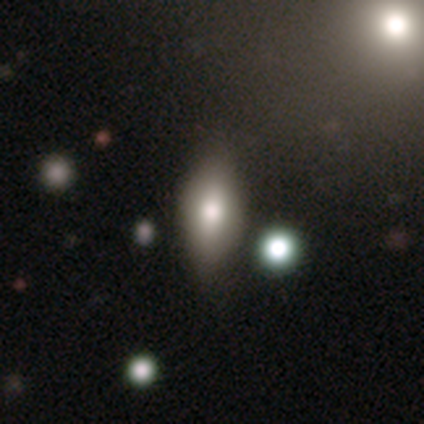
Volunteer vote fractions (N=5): Overall: smooth (100%). How rounded: in between (80%). Merging: none (60%; minor disturbance 40%).